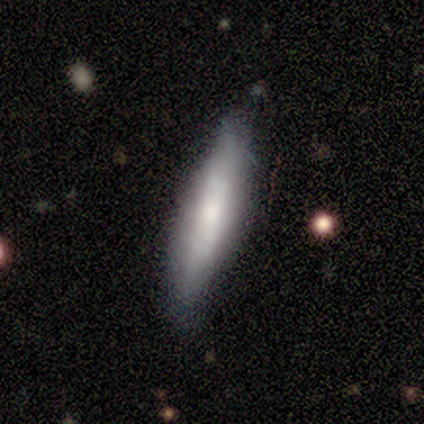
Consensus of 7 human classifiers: Smooth or featured? 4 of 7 (57%) said featured or disk. Edge-on disk? 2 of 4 (50%, tied with no) said yes. Edge-on bulge? 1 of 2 (50%, tied with rounded) said none. Merging? 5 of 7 (71%) said none.